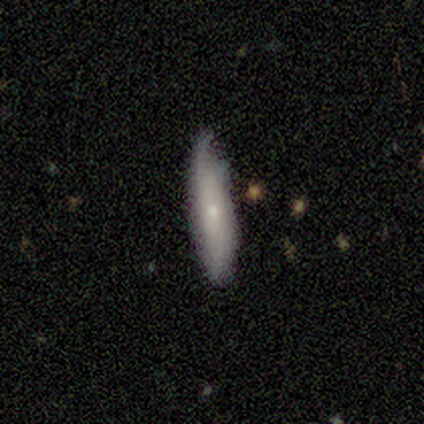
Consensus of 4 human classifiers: Smooth or featured? 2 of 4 (50%, tied with featured or disk) said smooth. How rounded? 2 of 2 (100%) said in between. Merging? 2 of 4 (50%, tied with minor disturbance) said none.